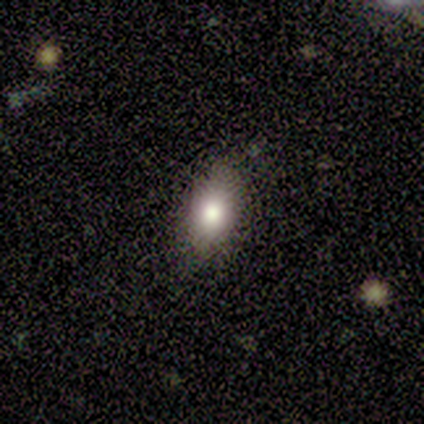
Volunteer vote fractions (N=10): Smooth or featured? smooth (90%)
How rounded? in between (78%)
Merging? none (78%)